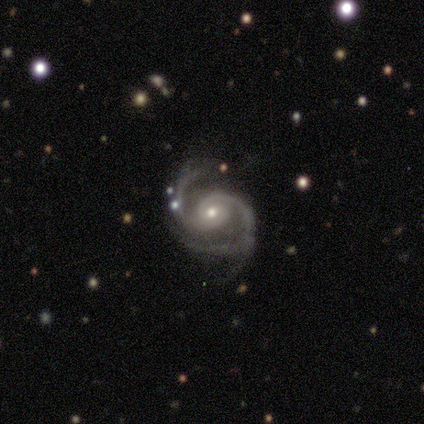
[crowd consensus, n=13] This is clearly a featured or disk galaxy (92%). It is clearly not viewed edge-on (100%). Bar: clearly no (92%). Spiral arm pattern: clearly yes (100%). Spiral arm count: clearly 2 (92%). Spiral winding: likely medium (67%). Central bulge: possibly moderate (50%). Merging: possibly none (58%).